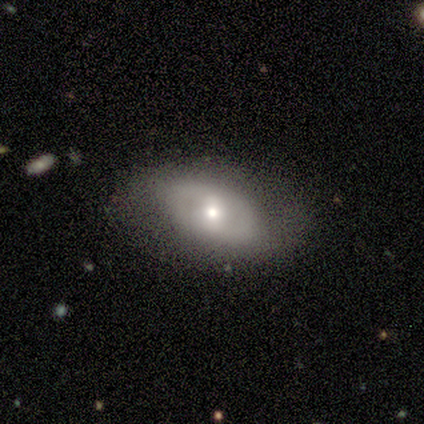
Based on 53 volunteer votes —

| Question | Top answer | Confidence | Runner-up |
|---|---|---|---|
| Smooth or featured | featured or disk | 70% | smooth (19%) |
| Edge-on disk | no | 100% | — |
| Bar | weak | 43% | no (38%) |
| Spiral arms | no | 54% | yes (46%) |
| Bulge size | moderate | 54% | small (32%) |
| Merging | none | 74% | minor disturbance (17%) |